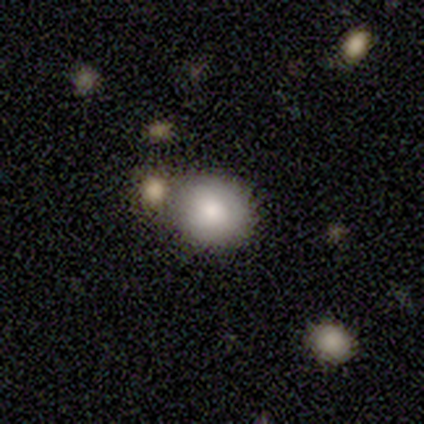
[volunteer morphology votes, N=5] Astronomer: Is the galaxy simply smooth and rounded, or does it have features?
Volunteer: smooth — 100%.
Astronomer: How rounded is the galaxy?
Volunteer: round — 60% (runner-up: in between, 40%).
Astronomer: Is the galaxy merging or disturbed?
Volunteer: none — 80%.